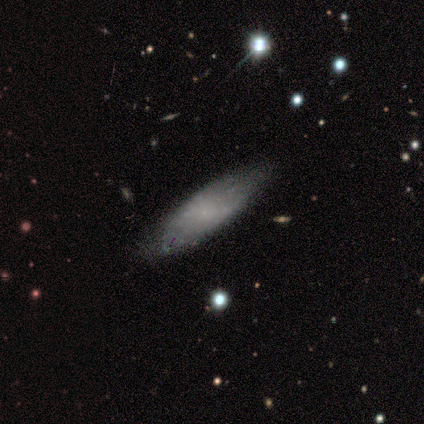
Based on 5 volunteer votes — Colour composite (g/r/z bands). It shows a smooth galaxy with no disk features (60%) that is in between round and cigar-shaped (67%). Merging: none (80%).